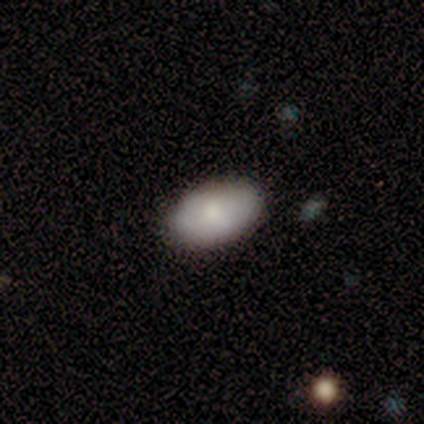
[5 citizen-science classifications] smooth_or_featured: smooth (p=1.00)
how_rounded: in between (p=1.00)
merging: none (p=0.80) [alt: minor disturbance p=0.20]